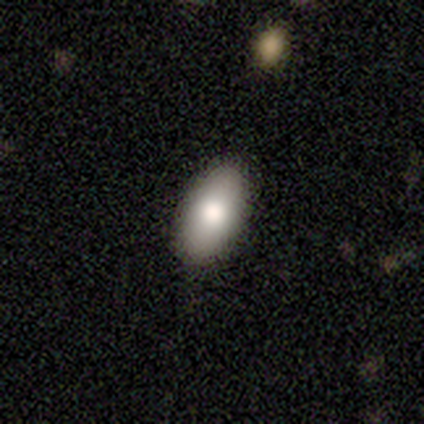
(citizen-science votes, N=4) Volunteers were most divided on "how rounded": in between: 75%, round: 25%, cigar-shaped: 0%. More confident: smooth or featured — smooth (100%); merging — none (100%).